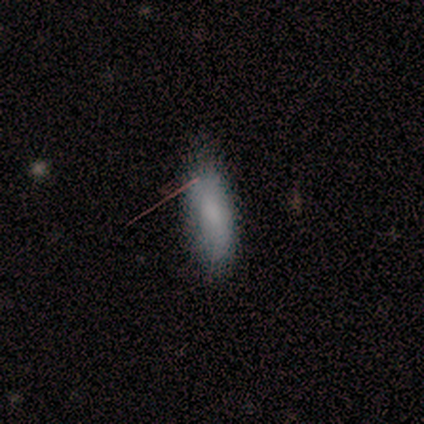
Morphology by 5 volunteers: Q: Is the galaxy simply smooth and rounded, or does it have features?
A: smooth — 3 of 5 (60%).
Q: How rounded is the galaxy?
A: round — 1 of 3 (33%, tied with in between and cigar-shaped).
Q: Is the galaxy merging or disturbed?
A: none — 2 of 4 (50%, tied with minor disturbance).